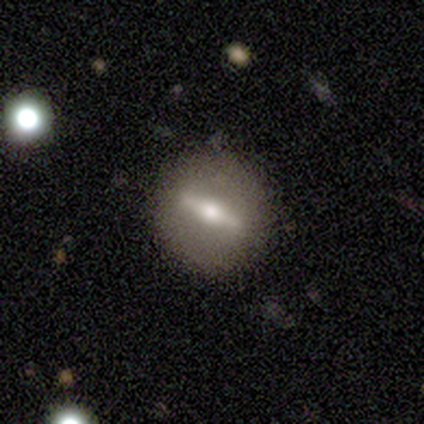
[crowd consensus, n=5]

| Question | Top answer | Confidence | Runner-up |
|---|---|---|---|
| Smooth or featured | featured or disk | 100% | — |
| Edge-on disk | no | 60% | yes (40%) |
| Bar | strong | 100% | — |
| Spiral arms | no | 100% | — |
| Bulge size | moderate | 67% | small (33%) |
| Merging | none | 100% | — |